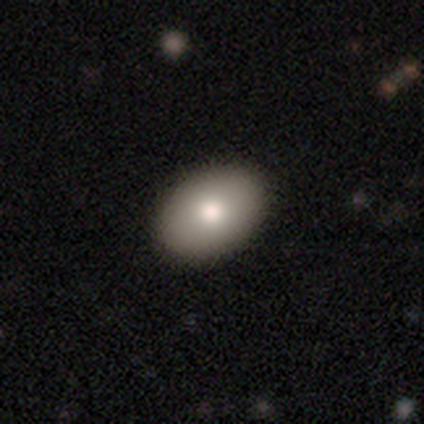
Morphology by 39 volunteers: Smooth or featured? smooth (79%)
How rounded? in between (87%)
Merging? none (71%)